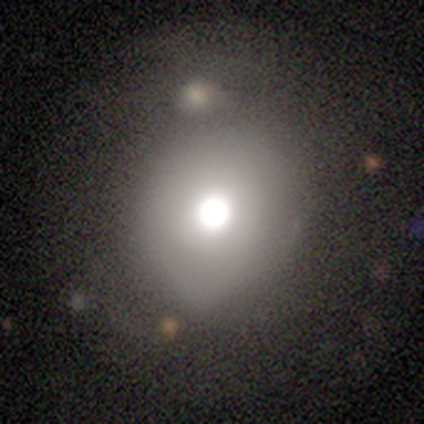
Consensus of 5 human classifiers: Smooth or featured? 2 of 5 (40%, tied with featured or disk) said smooth. How rounded? 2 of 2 (100%) said round. Merging? 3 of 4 (75%) said none.